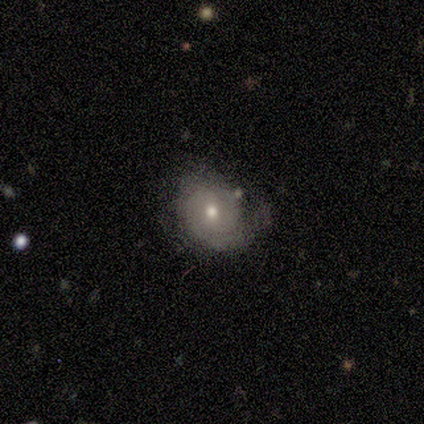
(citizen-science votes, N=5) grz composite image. It shows a featured or disk galaxy (40%, tied with star or artifact) with no bar (100%), 1 (50%, tied with can't tell) tight (50%, tied with loose) spiral arms (100%) and a moderate central bulge (50%, tied with small). Merging: none (67%).